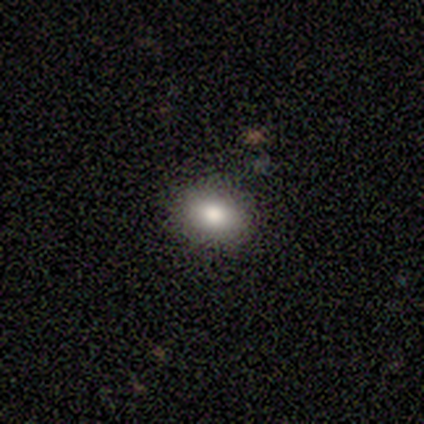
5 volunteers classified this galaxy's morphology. Smooth or featured?
  - smooth: 40% * (tied)
  - star or artifact: 40% * (tied)
  - featured or disk: 20%
How rounded?
  - round: 50% * (tied)
  - in between: 50% * (tied)
  - cigar-shaped: 0%
Merging?
  - none: 67% *
  - merger: 33%
  - minor disturbance: 0%
  - major disturbance: 0%